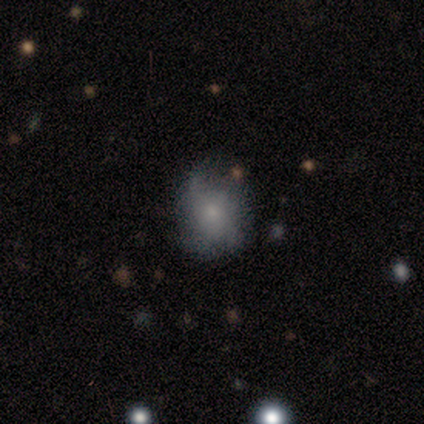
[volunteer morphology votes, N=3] Smooth or featured?
  - smooth: 100% *
  - featured or disk: 0%
  - star or artifact: 0%
How rounded?
  - round: 67% *
  - in between: 33%
  - cigar-shaped: 0%
Merging?
  - none: 33% * (tied)
  - minor disturbance: 33% * (tied)
  - major disturbance: 33% * (tied)
  - merger: 0%